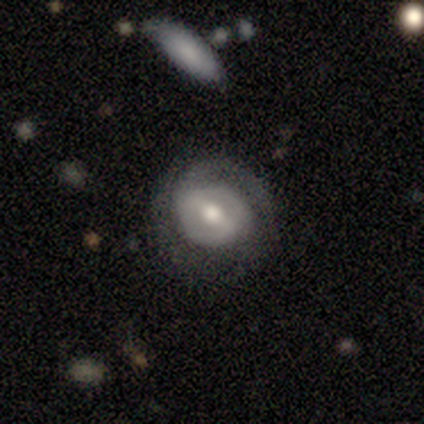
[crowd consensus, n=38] This is clearly a featured or disk galaxy (82%). It is clearly not viewed edge-on (94%). Bar: possibly strong (48%). Spiral arm pattern: clearly yes (83%). Spiral arm count: likely 2 (75%). Spiral winding: likely tight (71%). Central bulge: clearly moderate (83%). Merging: likely none (79%).